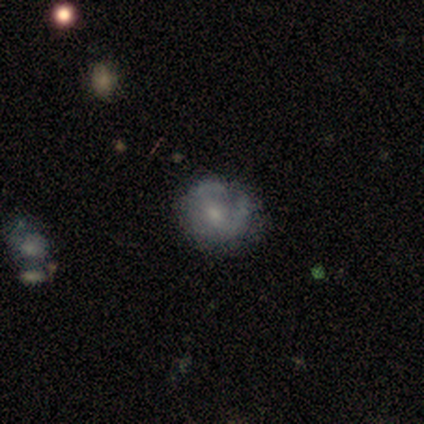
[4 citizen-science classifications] This is likely a featured or disk galaxy (75%). It is clearly not viewed edge-on (100%). Bar: likely weak (67%). Spiral arm pattern: likely yes (67%). Spiral arm count: clearly can't tell (100%). Spiral winding: possibly tight (50%, tied with loose). Central bulge: likely small (67%). Merging: possibly none (50%, tied with minor disturbance).